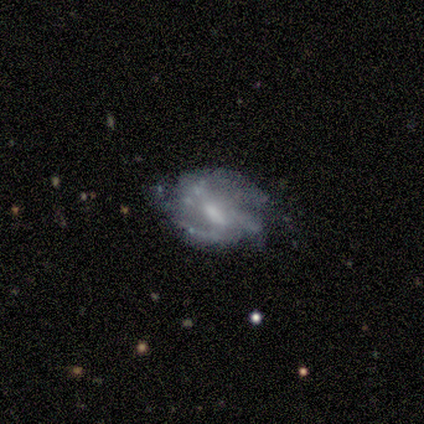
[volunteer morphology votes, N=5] Smooth or featured? featured or disk (100%)
Edge-on disk? no (100%)
Bar? weak (40%, tied with no)
Spiral arms? yes (100%)
Spiral winding? medium (40%, tied with loose)
Spiral arm count? 3 (40%)
Bulge size? moderate (80%)
Merging? none (60%)